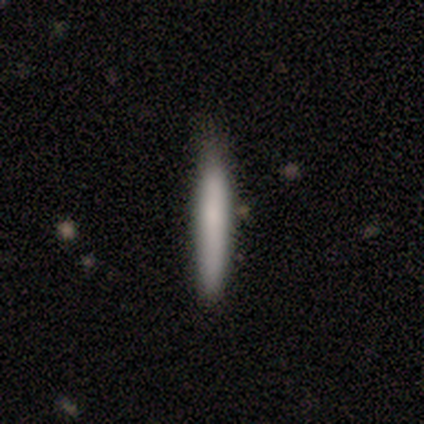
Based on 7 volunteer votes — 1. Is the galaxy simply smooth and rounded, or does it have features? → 57% smooth, 43% star or artifact, 0% featured or disk.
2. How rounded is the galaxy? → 100% cigar-shaped, 0% round, 0% in between.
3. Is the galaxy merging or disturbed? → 100% none, 0% minor disturbance, 0% major disturbance, 0% merger.